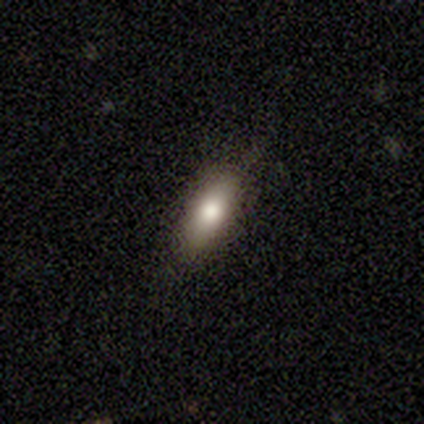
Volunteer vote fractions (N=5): This is clearly a smooth galaxy (80%). How rounded: possibly in between (50%, tied with cigar-shaped). Merging: clearly none (100%).